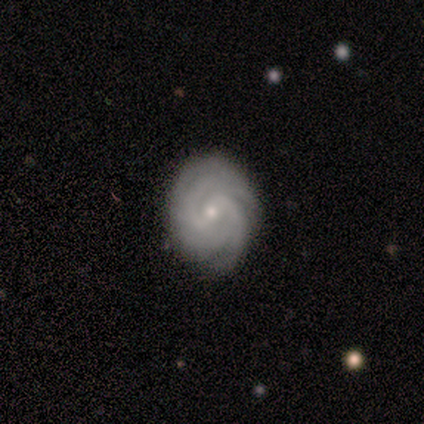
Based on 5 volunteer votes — featured or disk 100%, smooth 0%, star or artifact 0%. Down the decision tree: edge-on disk — no (100%); bar — weak (80%); spiral arms — yes (100%); spiral arm count — can't tell (40%); spiral winding — tight (80%); bulge size — small (80%); merging — none (60%).